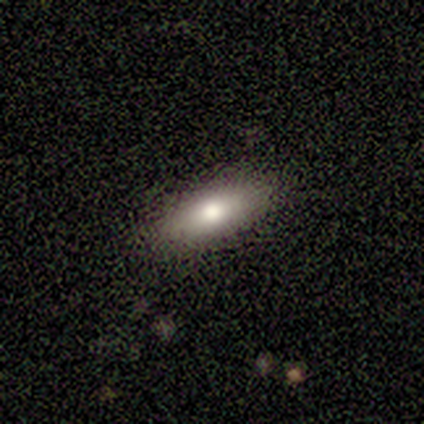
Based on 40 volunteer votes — A smooth galaxy with no disk features (70%) that is in between round and cigar-shaped (57%).

Vote fractions:
- Smooth or featured? smooth: 70% / featured or disk: 25% / star or artifact: 5%
- How rounded? in between: 57% / cigar-shaped: 43% / round: 0%
- Merging? none: 82% / minor disturbance: 13% / major disturbance: 5% / merger: 0%